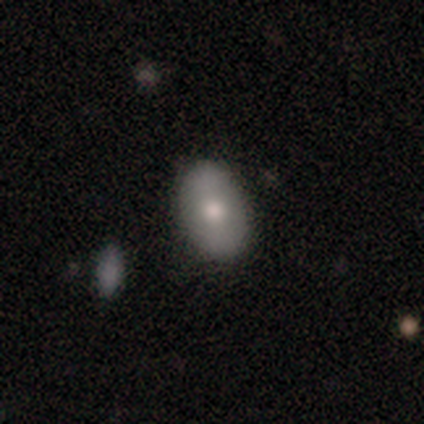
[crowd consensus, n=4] smooth 75%, star or artifact 25%, featured or disk 0%. Down the decision tree: how rounded — in between (67%); merging — none (67%).